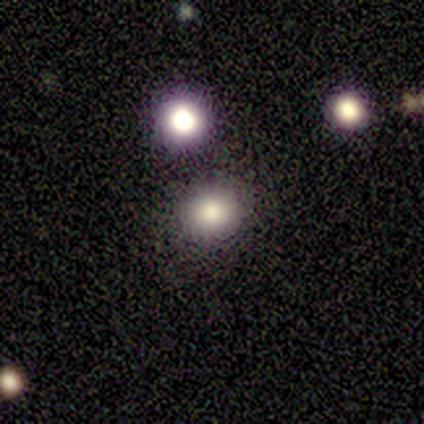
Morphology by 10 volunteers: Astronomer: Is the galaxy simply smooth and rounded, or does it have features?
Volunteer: smooth — 70%.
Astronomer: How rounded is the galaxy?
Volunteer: round — 86%.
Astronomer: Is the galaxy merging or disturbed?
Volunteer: none — 88%.